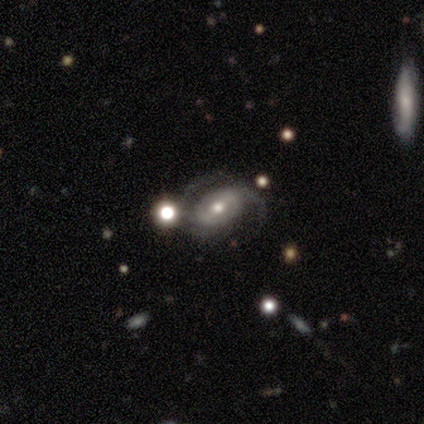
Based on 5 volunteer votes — smooth-or-featured: featured or disk: 80% | smooth: 20% | star or artifact: 0%
  disk-edge-on: no: 100% | yes: 0%
    bar: weak: 50% | strong: 25% | no: 25%
    has-spiral-arms: yes: 100% | no: 0%
      spiral-winding: tight: 50% | medium: 25% | loose: 25%
      spiral-arm-count: 2: 75% | 3: 25% | 1: 0% | 4: 0% | more than 4: 0% | can't tell: 0%
    bulge-size: small: 50% | large: 25% | moderate: 25% | dominant: 0% | none: 0%
  merging: none: 80% | merger: 20% | minor disturbance: 0% | major disturbance: 0%